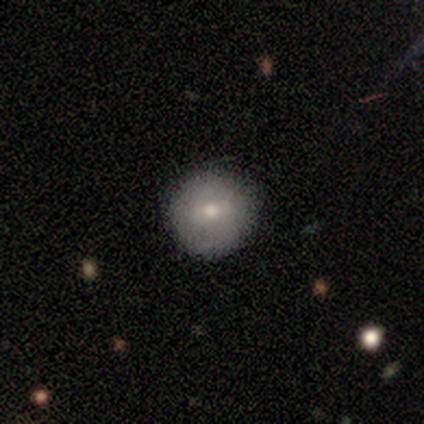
Smooth or featured? smooth (100%)
How rounded? round (100%)
Merging? none (75%)